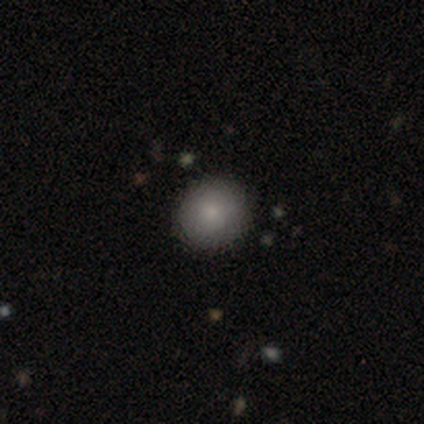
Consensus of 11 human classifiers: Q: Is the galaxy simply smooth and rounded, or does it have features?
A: smooth — 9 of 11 (82%).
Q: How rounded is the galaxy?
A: round — 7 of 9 (78%).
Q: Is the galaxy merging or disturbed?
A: none — 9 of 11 (82%).